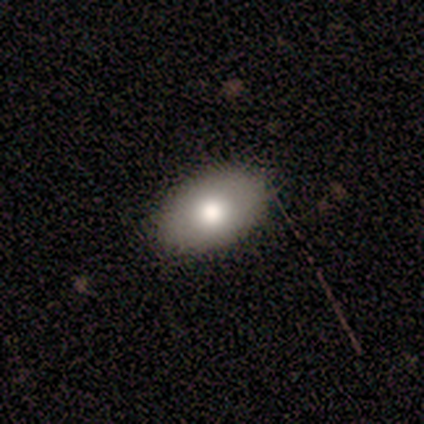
Morphology: type=smooth (100%); roundness=in between (100%); merging=none (100%).